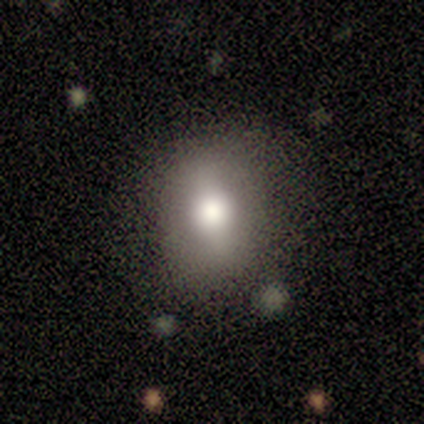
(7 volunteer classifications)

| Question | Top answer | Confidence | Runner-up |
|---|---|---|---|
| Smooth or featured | smooth | 57% | featured or disk (29%) |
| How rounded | round | 75% | in between (25%) |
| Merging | none | 83% | minor disturbance (17%) |